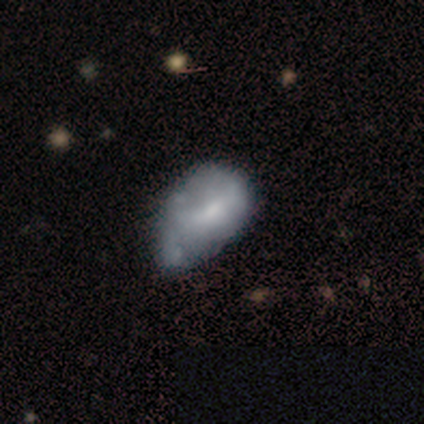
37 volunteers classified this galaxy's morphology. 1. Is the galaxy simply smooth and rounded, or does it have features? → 62% featured or disk, 35% smooth, 3% star or artifact.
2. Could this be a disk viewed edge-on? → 100% no, 0% yes.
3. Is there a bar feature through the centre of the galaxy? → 57% no, 39% weak, 4% strong.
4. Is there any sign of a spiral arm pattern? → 83% no, 17% yes.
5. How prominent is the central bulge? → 52% small, 26% moderate, 22% none, 0% dominant, 0% large.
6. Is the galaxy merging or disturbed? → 36% minor disturbance, 17% major disturbance, 11% merger, 8% none.